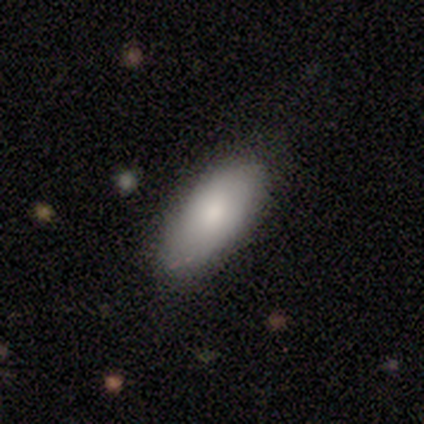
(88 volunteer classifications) Smooth or featured? smooth (84%)
How rounded? in between (88%)
Merging? none (75%)